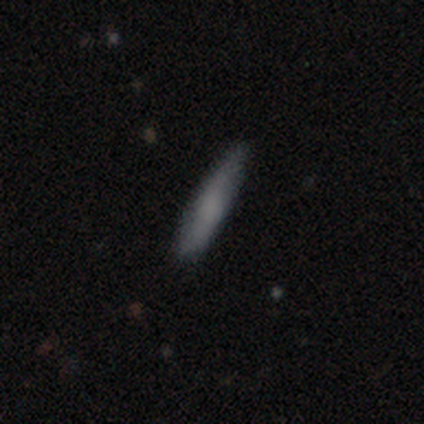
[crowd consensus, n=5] Smooth or featured: smooth — 80% (featured or disk — 20%)
How rounded: cigar-shaped — 75% (in between — 25%)
Merging: none — 80% (minor disturbance — 20%)